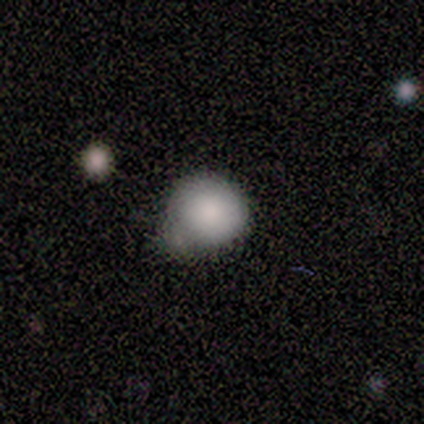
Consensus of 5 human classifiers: Smooth or featured? smooth (80%)
How rounded? round (100%)
Merging? minor disturbance (80%)